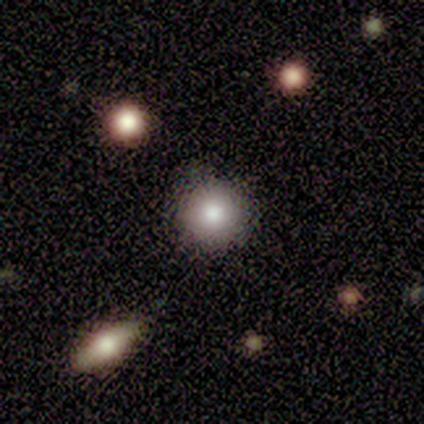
smooth_or_featured: smooth (p=0.60) [alt: star or artifact p=0.30]
how_rounded: round (p=1.00)
merging: none (p=0.57) [alt: minor disturbance p=0.29]